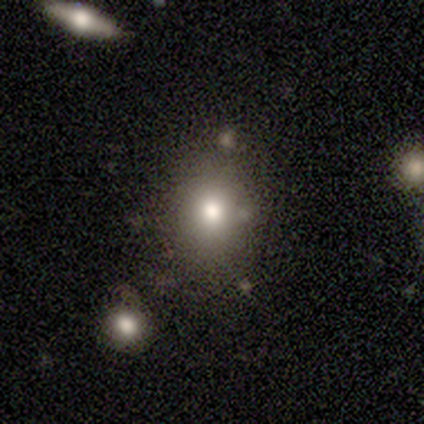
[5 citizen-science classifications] Volunteers were most divided on "smooth or featured": smooth: 60%, featured or disk: 20%, star or artifact: 20%. More confident: how rounded — in between (100%); merging — none (75%).